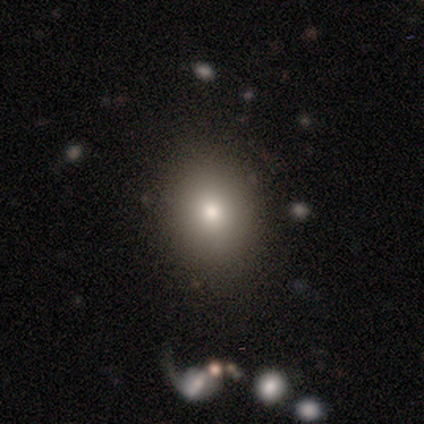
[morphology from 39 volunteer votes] type=smooth (85%); roundness=round (58%); merging=none (92%).